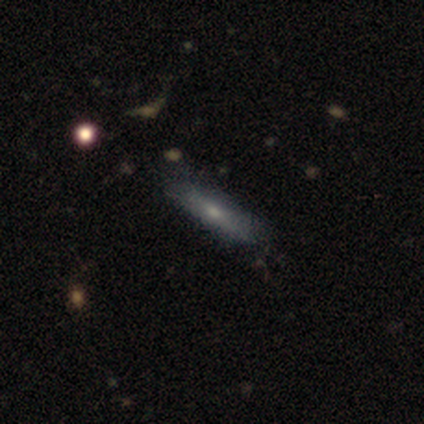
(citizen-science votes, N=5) This is clearly a smooth galaxy (80%). How rounded: clearly cigar-shaped (100%). Merging: clearly none (80%).